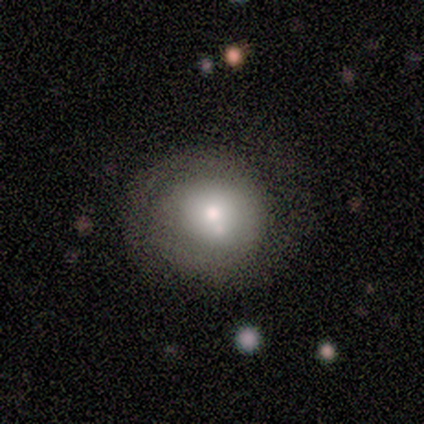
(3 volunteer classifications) Q: Smooth or featured?
A: featured or disk (67%); runner-up: smooth (33%)
Q: Edge-on disk?
A: no (100%)
Q: Bar?
A: no (100%)
Q: Spiral arms?
A: yes (50%); tied with: no (50%)
Q: Spiral winding?
A: tight (100%)
Q: Spiral arm count?
A: 2 (100%)
Q: Bulge size?
A: large (50%); tied with: small (50%)
Q: Merging?
A: none (100%)